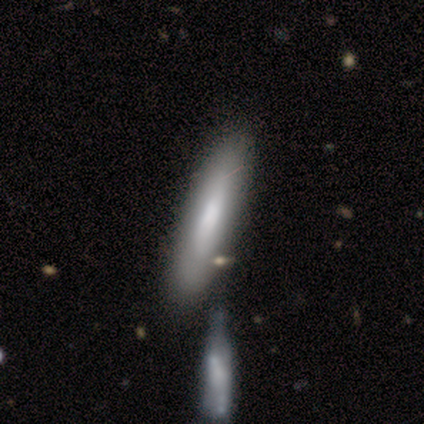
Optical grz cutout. It shows a smooth galaxy with no disk features (82%) that is cigar-shaped (89%). Merging: none (70%).